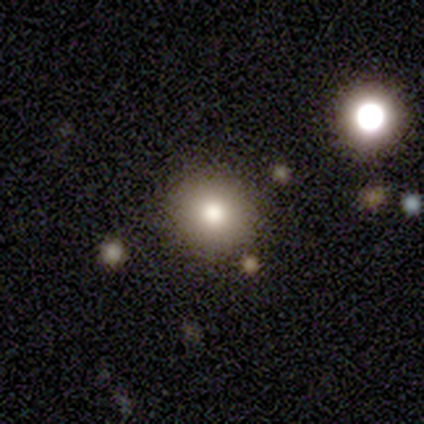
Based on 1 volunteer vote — Overall: smooth (100%). How rounded: round (100%). Merging: none (100%).